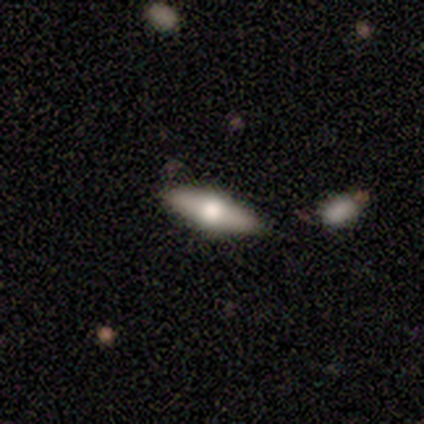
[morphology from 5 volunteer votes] Smooth or featured? 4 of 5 (80%) said featured or disk. Edge-on disk? 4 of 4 (100%) said yes. Edge-on bulge? 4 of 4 (100%) said rounded. Merging? 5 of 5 (100%) said none.